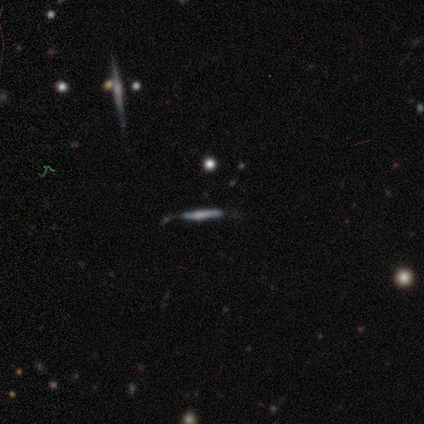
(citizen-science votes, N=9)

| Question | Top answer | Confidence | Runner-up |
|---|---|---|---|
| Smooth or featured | featured or disk | 78% | smooth (22%) |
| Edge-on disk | yes | 100% | — |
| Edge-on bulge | rounded | 57% | boxy (43%) |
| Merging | minor disturbance | 44% | none (33%) |